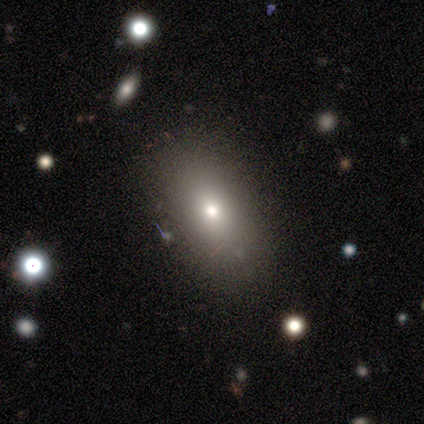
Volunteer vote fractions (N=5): Overall: smooth (60%; featured or disk 40%). How rounded: in between (100%). Merging: none (80%).